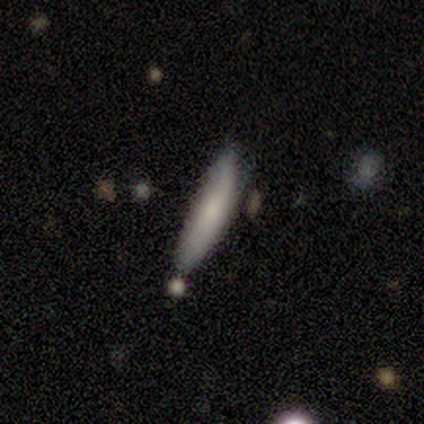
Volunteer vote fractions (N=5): Smooth or featured: smooth — 80% (featured or disk — 20%)
How rounded: cigar-shaped — 100%
Merging: none — 80% (minor disturbance — 20%)